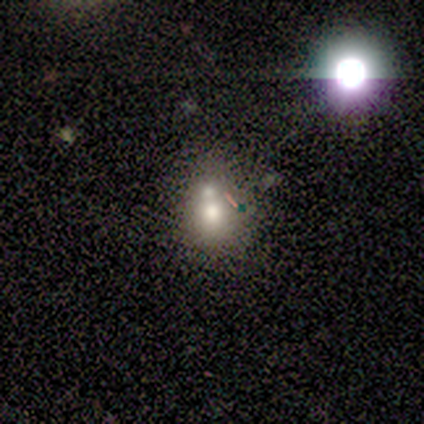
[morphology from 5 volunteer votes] A smooth galaxy with no disk features (80%) that is round (50%, tied with in between). Merging: merger (75%).